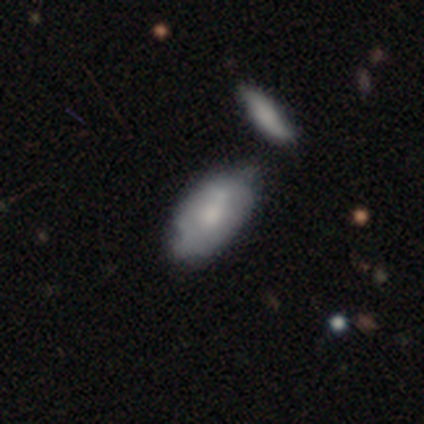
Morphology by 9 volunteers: smooth_or_featured: smooth (p=0.67) [alt: featured or disk p=0.33]
how_rounded: in between (p=0.83) [alt: cigar-shaped p=0.17]
merging: minor disturbance (p=0.44) [alt: none p=0.33]